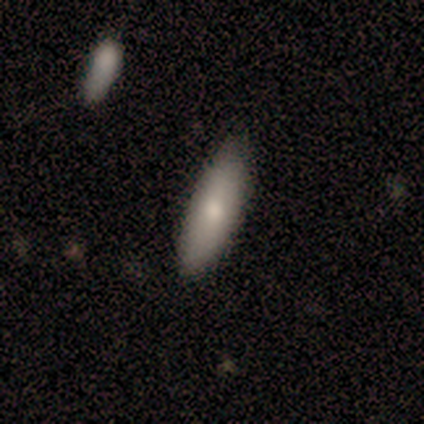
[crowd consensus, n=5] smooth_or_featured: smooth (p=0.80) [alt: featured or disk p=0.20]
how_rounded: in between (p=0.75) [alt: cigar-shaped p=0.25]
merging: none (p=1.00)